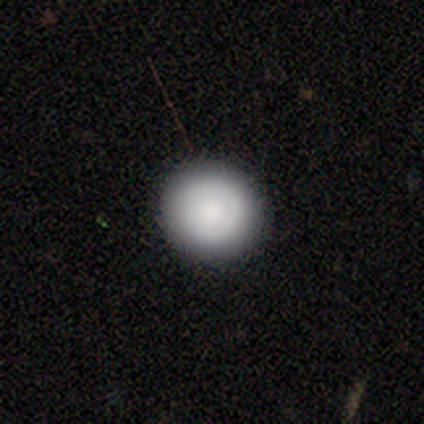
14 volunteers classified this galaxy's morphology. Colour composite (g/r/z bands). It shows a smooth galaxy with no disk features (79%) that is round (91%). Merging: none (79%).